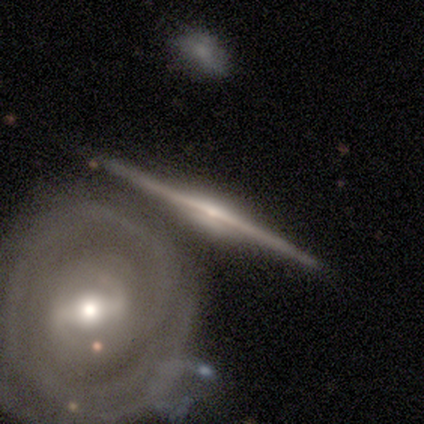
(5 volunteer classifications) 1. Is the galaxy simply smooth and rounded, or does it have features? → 80% featured or disk, 20% star or artifact, 0% smooth.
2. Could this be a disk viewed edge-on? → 100% yes, 0% no.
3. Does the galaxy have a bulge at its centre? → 50% boxy (tied), 50% rounded (tied), 0% none.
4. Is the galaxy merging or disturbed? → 75% none, 25% minor disturbance, 0% major disturbance, 0% merger.